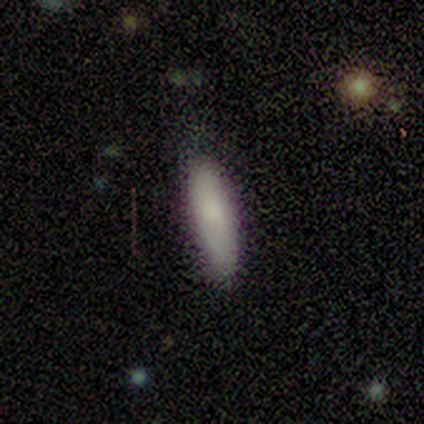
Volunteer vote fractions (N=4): smooth 75%, featured or disk 25%, star or artifact 0%. Down the decision tree: how rounded — cigar-shaped (100%); merging — none (50%, tied with minor disturbance).